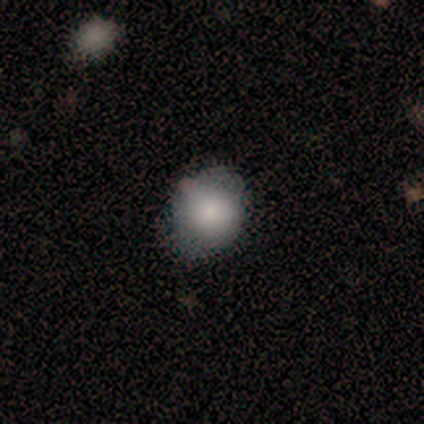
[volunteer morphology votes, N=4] This is clearly a smooth galaxy (100%). How rounded: possibly round (50%, tied with in between). Merging: clearly none (100%).